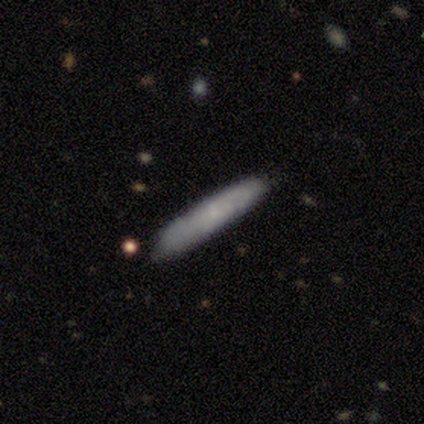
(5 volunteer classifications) Morphology: type=smooth (80%); roundness=cigar-shaped (100%); merging=none (100%).